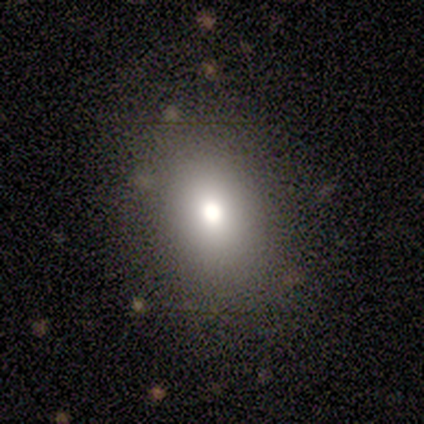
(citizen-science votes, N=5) Smooth or featured? 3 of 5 (60%) said star or artifact.